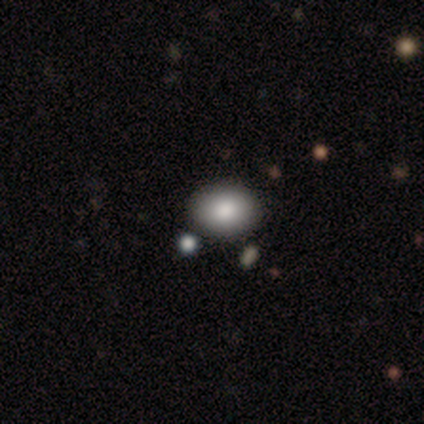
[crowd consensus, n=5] Q: Smooth or featured?
A: smooth (80%); runner-up: star or artifact (20%)
Q: How rounded?
A: round (50%); tied with: in between (50%)
Q: Merging?
A: none (50%); tied with: minor disturbance (50%)